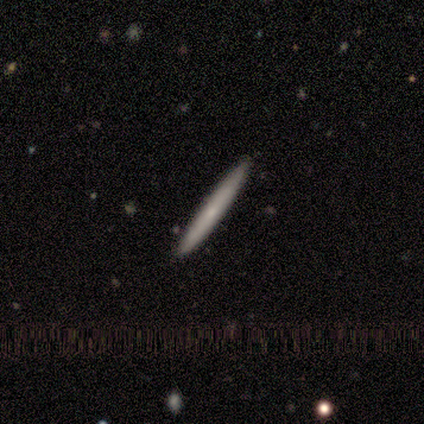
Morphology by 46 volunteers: Smooth or featured: smooth — 59% (featured or disk — 37%)
How rounded: cigar-shaped — 100%
Merging: none — 95% (minor disturbance — 2%)